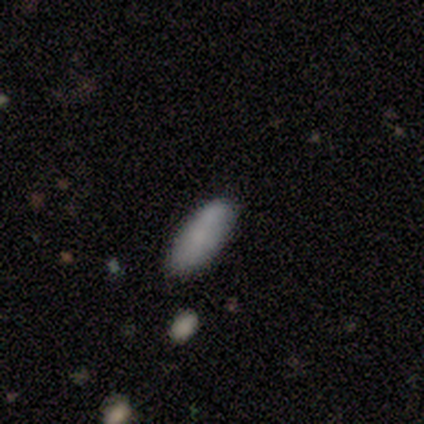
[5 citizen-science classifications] This appears to be a smooth galaxy with no disk features (100%) that is cigar-shaped (80%). Merging: none (100%).